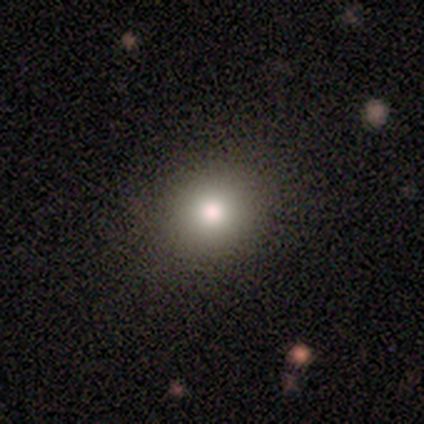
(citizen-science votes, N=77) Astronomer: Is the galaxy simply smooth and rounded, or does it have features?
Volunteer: smooth — 86%.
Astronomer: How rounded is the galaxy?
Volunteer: round — 83%.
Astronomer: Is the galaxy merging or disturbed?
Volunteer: none — 47%.